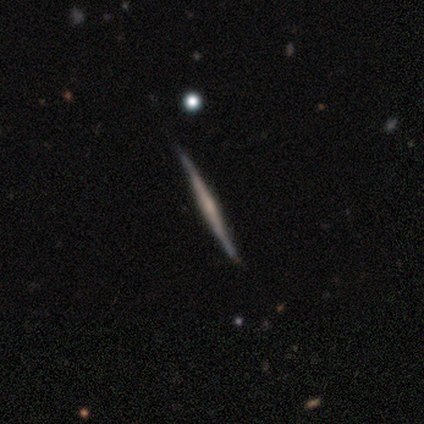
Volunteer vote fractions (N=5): Smooth or featured? featured or disk (80%)
Edge-on disk? yes (100%)
Edge-on bulge? rounded (75%)
Merging? none (100%)